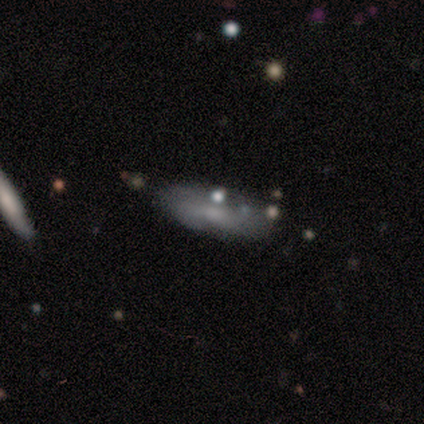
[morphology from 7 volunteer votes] Volunteers were most divided on "how rounded": in between: 60%, cigar-shaped: 40%, round: 0%. More confident: smooth or featured — smooth (71%); merging — none (71%).